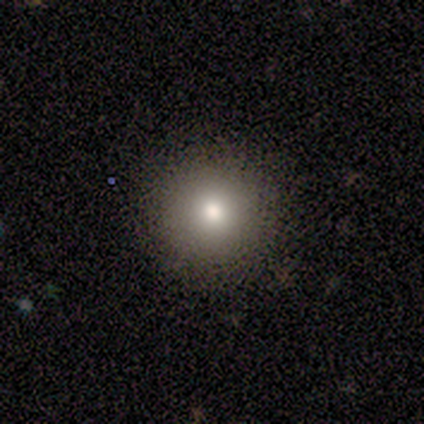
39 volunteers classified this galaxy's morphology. Smooth or featured?
  - smooth: 77% *
  - featured or disk: 13%
  - star or artifact: 10%
How rounded?
  - round: 100% *
  - in between: 0%
  - cigar-shaped: 0%
Merging?
  - none: 91% *
  - minor disturbance: 6%
  - major disturbance: 3%
  - merger: 0%